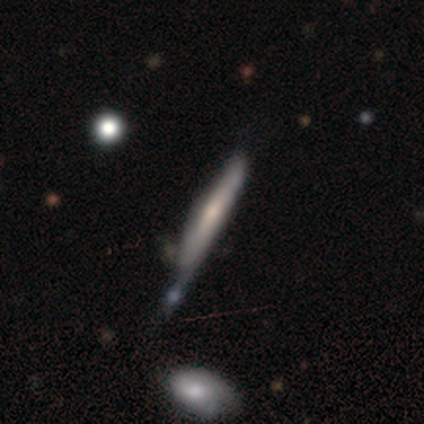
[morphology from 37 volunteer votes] Smooth or featured?
  - featured or disk: 59% *
  - smooth: 38%
  - star or artifact: 3%
Edge-on disk?
  - yes: 95% *
  - no: 5%
Edge-on bulge?
  - none: 48% *
  - rounded: 33%
  - boxy: 19%
Merging?
  - none: 39% *
  - minor disturbance: 31%
  - merger: 25%
  - major disturbance: 6%